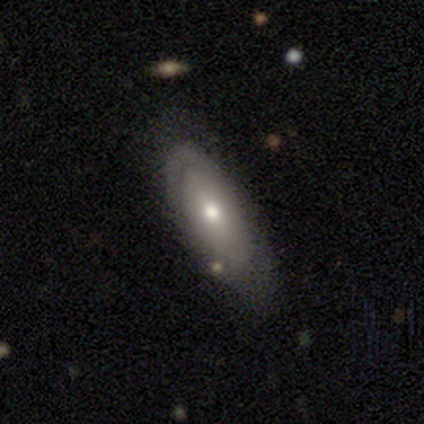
A smooth galaxy with no disk features (60%) that is in between round and cigar-shaped (100%). Merging: none (100%).